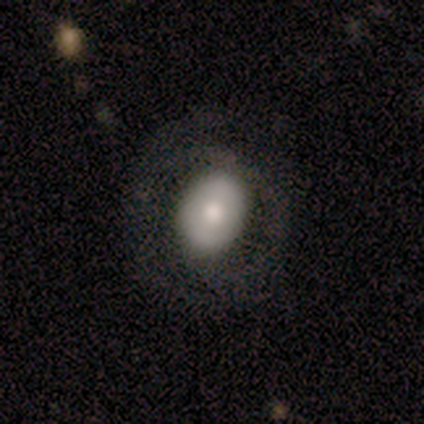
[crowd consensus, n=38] Volunteers were most divided on "smooth or featured": smooth: 63%, featured or disk: 34%, star or artifact: 3%. More confident: how rounded — in between (67%); merging — none (57%).